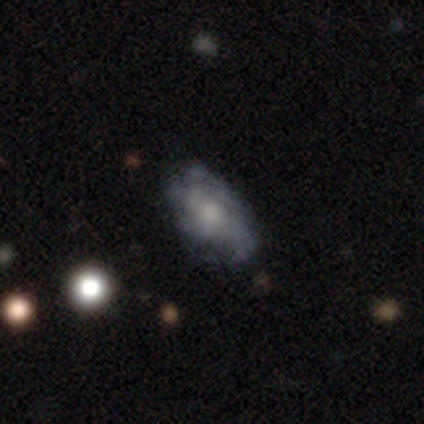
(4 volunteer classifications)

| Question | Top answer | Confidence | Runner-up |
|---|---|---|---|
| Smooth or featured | featured or disk | 75% | smooth (25%) |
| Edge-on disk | no | 100% | — |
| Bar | no | 67% | strong (33%) |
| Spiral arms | yes | 67% | no (33%) |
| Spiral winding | medium | 100% | — |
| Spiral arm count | can't tell | 100% | — |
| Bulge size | small | 100% | — |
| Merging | none | 50% | tied: minor disturbance (50%) |